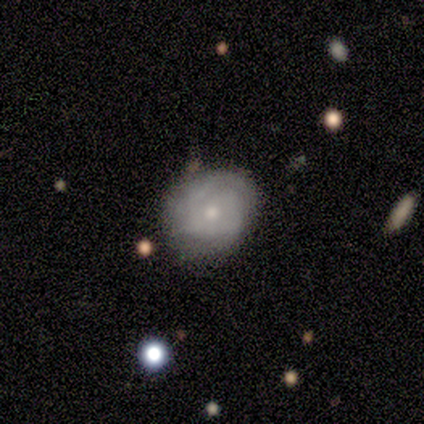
Overall: featured or disk (68%). Edge-on disk: no (93%). Bar: no (88%). Spiral arms: yes (84%). Spiral arm count: can't tell (52%; 1 24%). Spiral winding: tight (71%). Bulge size: moderate (52%; small 40%). Merging: none (53%; minor disturbance 29%).